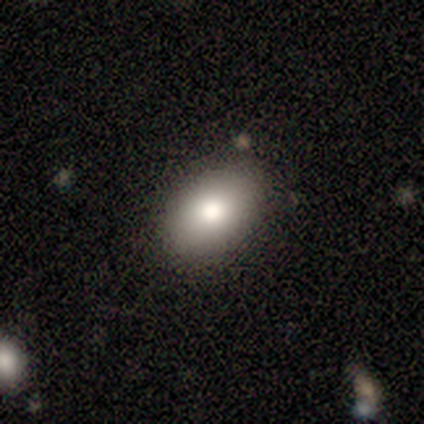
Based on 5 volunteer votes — Smooth or featured?
  - smooth: 100% *
  - featured or disk: 0%
  - star or artifact: 0%
How rounded?
  - in between: 100% *
  - round: 0%
  - cigar-shaped: 0%
Merging?
  - none: 100% *
  - minor disturbance: 0%
  - major disturbance: 0%
  - merger: 0%